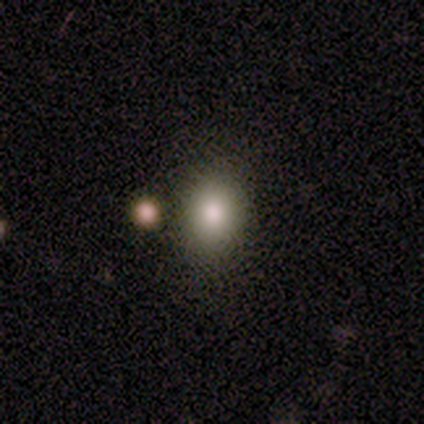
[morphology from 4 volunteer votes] Smooth or featured? 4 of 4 (100%) said smooth. How rounded? 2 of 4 (50%, tied with in between) said round. Merging? 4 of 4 (100%) said none.